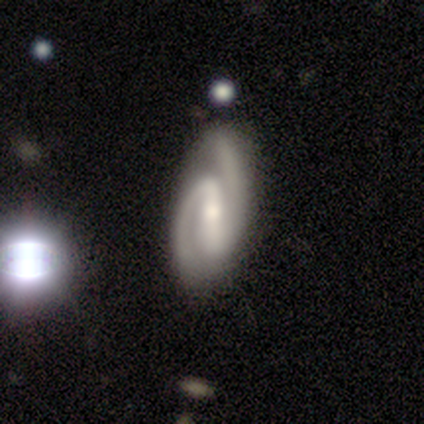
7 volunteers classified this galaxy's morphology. featured or disk 100%, smooth 0%, star or artifact 0%. Down the decision tree: edge-on disk — no (100%); bar — strong (71%); spiral arms — yes (100%); spiral arm count — 2 (100%); spiral winding — medium (57%); bulge size — moderate (43%, tied with small); merging — none (100%).